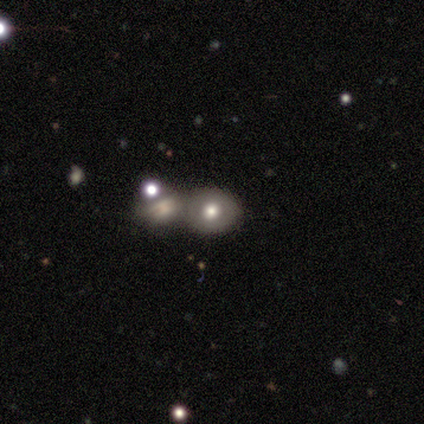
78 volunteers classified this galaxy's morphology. Q: Smooth or featured?
A: smooth (60%); runner-up: featured or disk (33%)
Q: How rounded?
A: round (72%); runner-up: in between (28%)
Q: Merging?
A: merger (64%); runner-up: none (18%)